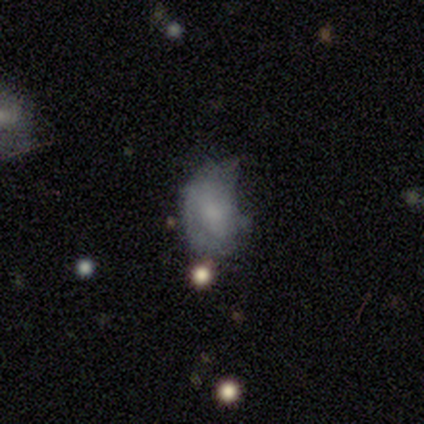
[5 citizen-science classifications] Smooth or featured?
  - smooth: 40% * (tied)
  - featured or disk: 40% * (tied)
  - star or artifact: 20%
How rounded?
  - in between: 100% *
  - round: 0%
  - cigar-shaped: 0%
Merging?
  - major disturbance: 50% *
  - none: 25%
  - minor disturbance: 25%
  - merger: 0%